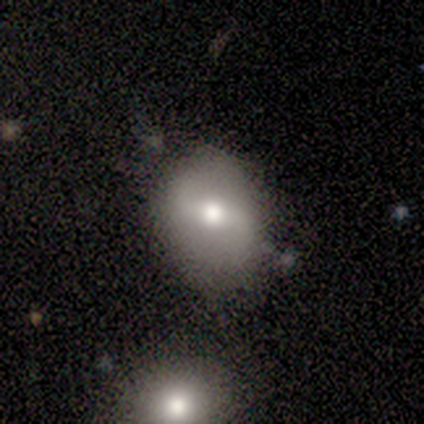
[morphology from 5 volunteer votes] featured or disk 60%, smooth 40%, star or artifact 0%. Down the decision tree: edge-on disk — no (100%); bar — no (67%); spiral arms — yes (67%); spiral arm count — 2 (100%); spiral winding — loose (100%); bulge size — moderate (100%); merging — none (60%).